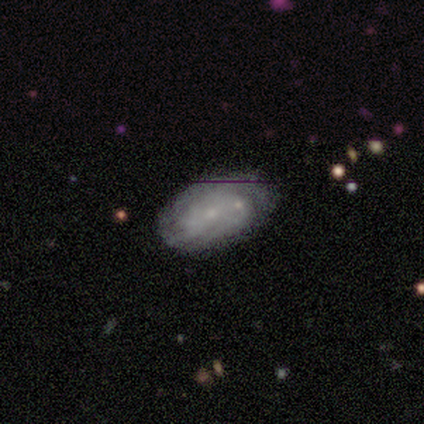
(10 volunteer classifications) Smooth or featured?
  - featured or disk: 80% *
  - smooth: 20%
  - star or artifact: 0%
Edge-on disk?
  - no: 100% *
  - yes: 0%
Bar?
  - no: 50% *
  - weak: 38%
  - strong: 12%
Spiral arms?
  - yes: 75% *
  - no: 25%
Spiral winding?
  - tight: 67% *
  - medium: 17%
  - loose: 17%
Spiral arm count?
  - can't tell: 67% *
  - 2: 33%
  - 1: 0%
  - 3: 0%
  - 4: 0%
  - more than 4: 0%
Bulge size?
  - small: 88% *
  - none: 12%
  - dominant: 0%
  - large: 0%
  - moderate: 0%
Merging?
  - none: 40% * (tied)
  - merger: 40% * (tied)
  - minor disturbance: 20%
  - major disturbance: 0%